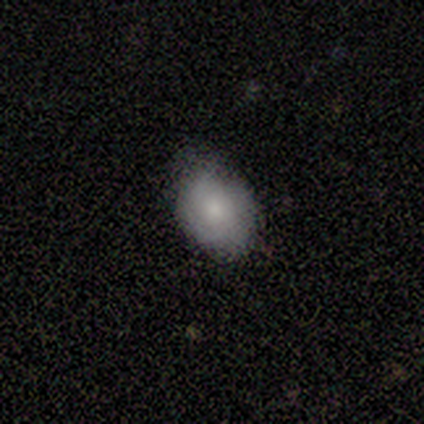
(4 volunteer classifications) This appears to be a smooth galaxy with no disk features (75%) that is round (67%). Merging: none (50%, tied with minor disturbance).